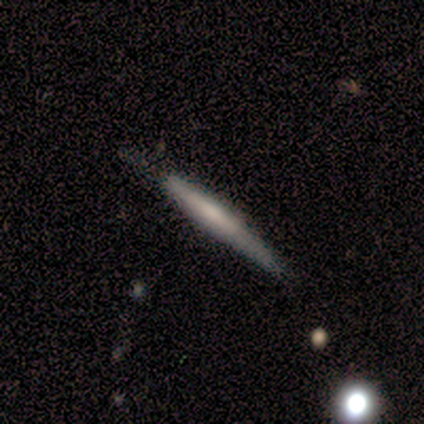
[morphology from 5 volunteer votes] smooth_or_featured: smooth (p=0.60) [alt: featured or disk p=0.40]
how_rounded: cigar-shaped (p=1.00)
merging: none (p=0.80) [alt: minor disturbance p=0.20]